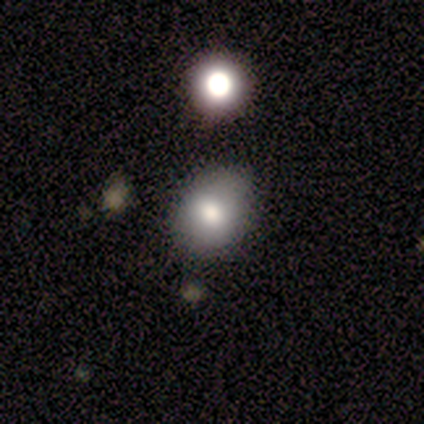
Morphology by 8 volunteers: Smooth or featured?
  - smooth: 100% *
  - featured or disk: 0%
  - star or artifact: 0%
How rounded?
  - round: 62% *
  - in between: 38%
  - cigar-shaped: 0%
Merging?
  - none: 62% *
  - minor disturbance: 25%
  - merger: 12%
  - major disturbance: 0%